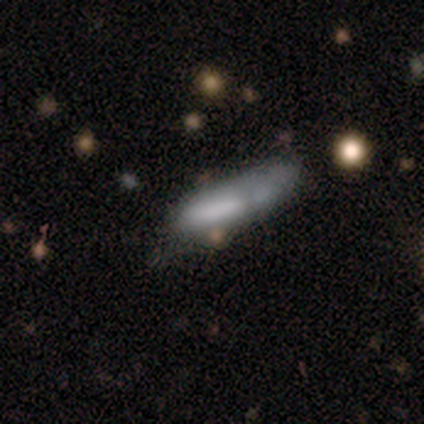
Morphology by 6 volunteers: smooth-or-featured: smooth: 67% | featured or disk: 33% | star or artifact: 0%
  how-rounded: cigar-shaped: 100% | round: 0% | in between: 0%
  merging: minor disturbance: 50% (tied) | major disturbance: 50% (tied) | none: 0% | merger: 0%